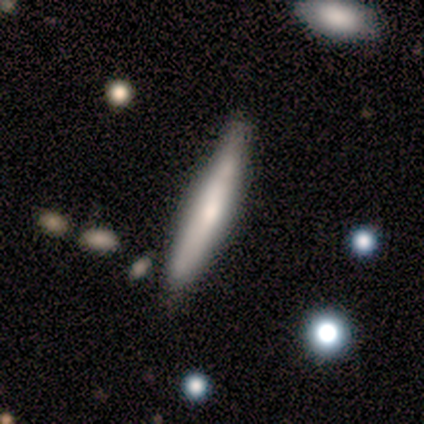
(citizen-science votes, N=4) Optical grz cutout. It shows a smooth galaxy with no disk features (75%) that is cigar-shaped (100%). Merging: none (67%).